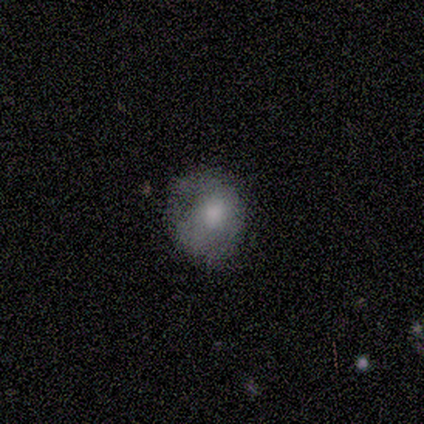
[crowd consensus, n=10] Smooth or featured?
  - smooth: 60% *
  - featured or disk: 20%
  - star or artifact: 20%
How rounded?
  - round: 50% * (tied)
  - in between: 50% * (tied)
  - cigar-shaped: 0%
Merging?
  - none: 62% *
  - minor disturbance: 38%
  - major disturbance: 0%
  - merger: 0%